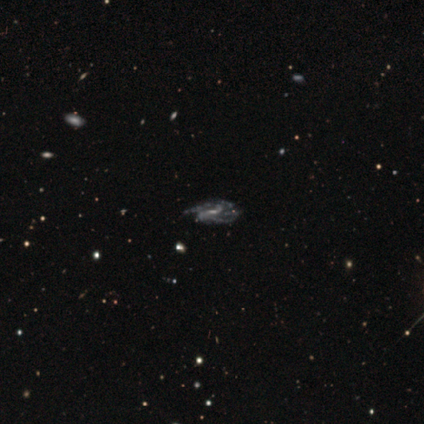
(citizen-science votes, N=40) This appears to be a featured or disk galaxy (88%) with a weak bar (47%), medium (48%) spiral arms (97%) and a small central bulge (53%). Merging: none (32%).